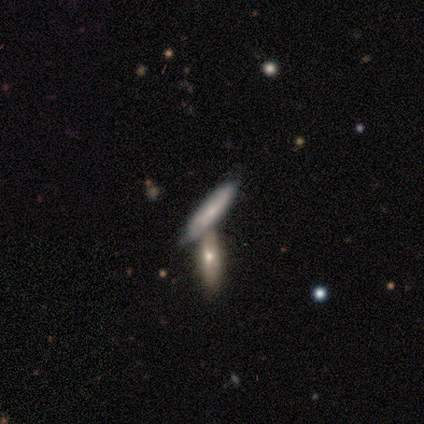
Smooth or featured?
  - smooth: 100% *
  - featured or disk: 0%
  - star or artifact: 0%
How rounded?
  - cigar-shaped: 100% *
  - round: 0%
  - in between: 0%
Merging?
  - none: 75% *
  - merger: 25%
  - minor disturbance: 0%
  - major disturbance: 0%